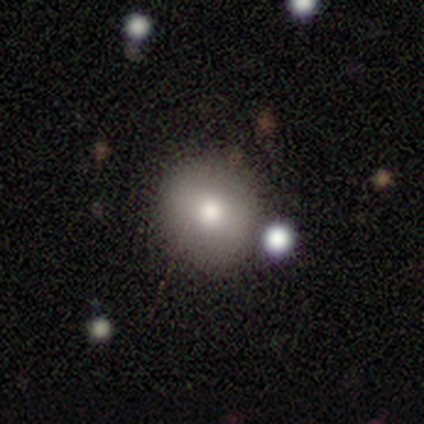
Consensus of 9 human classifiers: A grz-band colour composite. It shows a smooth galaxy with no disk features (78%) that is round (86%). Merging: none (67%).